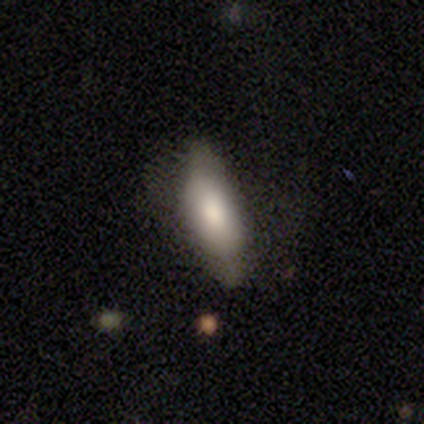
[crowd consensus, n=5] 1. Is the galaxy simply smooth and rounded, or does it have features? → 100% smooth, 0% featured or disk, 0% star or artifact.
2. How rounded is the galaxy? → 100% in between, 0% round, 0% cigar-shaped.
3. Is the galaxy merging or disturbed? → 60% none, 40% minor disturbance, 0% major disturbance, 0% merger.